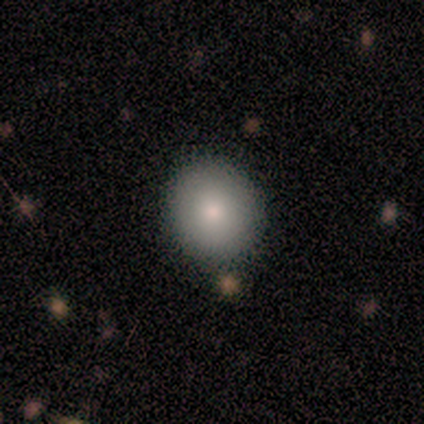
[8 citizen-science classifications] Volunteers were most divided on "how rounded" (2-way tie): round: 50%, in between: 50%, cigar-shaped: 0%. More confident: smooth or featured — smooth (100%); merging — none (100%).